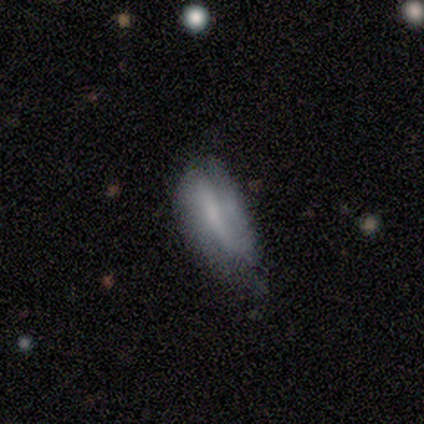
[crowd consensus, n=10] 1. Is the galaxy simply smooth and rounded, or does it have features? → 80% featured or disk, 20% smooth, 0% star or artifact.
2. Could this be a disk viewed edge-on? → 100% no, 0% yes.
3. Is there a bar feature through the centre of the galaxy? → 50% weak, 25% strong, 25% no.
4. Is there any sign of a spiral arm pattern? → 62% yes, 38% no.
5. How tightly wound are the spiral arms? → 80% loose, 20% tight, 0% medium.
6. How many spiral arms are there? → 100% 2, 0% 1, 0% 3, 0% 4, 0% more than 4, 0% can't tell.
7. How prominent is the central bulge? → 50% small, 38% moderate, 12% dominant, 0% large, 0% none.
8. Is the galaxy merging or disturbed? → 70% none, 20% minor disturbance, 10% major disturbance, 0% merger.